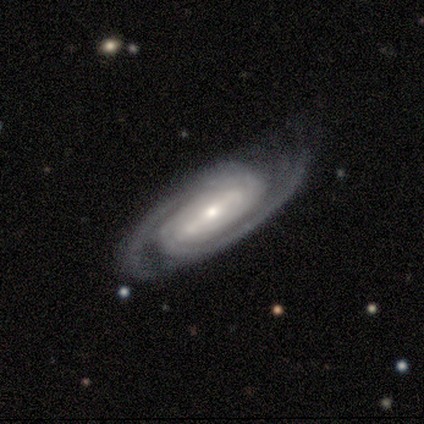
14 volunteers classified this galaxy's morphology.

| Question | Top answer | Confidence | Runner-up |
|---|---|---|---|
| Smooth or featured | featured or disk | 100% | — |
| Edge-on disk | no | 100% | — |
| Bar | strong | 57% | weak (36%) |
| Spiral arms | yes | 93% | no (7%) |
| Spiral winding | tight | 62% | medium (23%) |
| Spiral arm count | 2 | 62% | can't tell (23%) |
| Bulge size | small | 71% | large (14%) |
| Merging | none | 71% | minor disturbance (21%) |